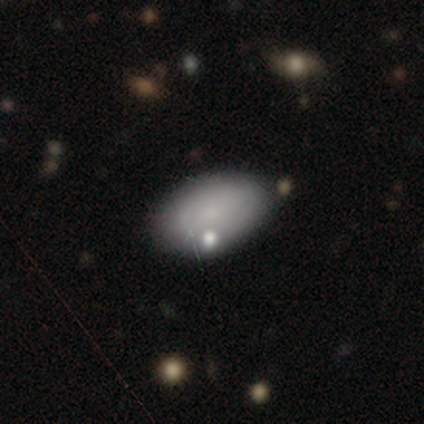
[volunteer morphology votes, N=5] Q: Smooth or featured?
A: smooth (100%)
Q: How rounded?
A: in between (80%); runner-up: round (20%)
Q: Merging?
A: none (80%); runner-up: major disturbance (20%)